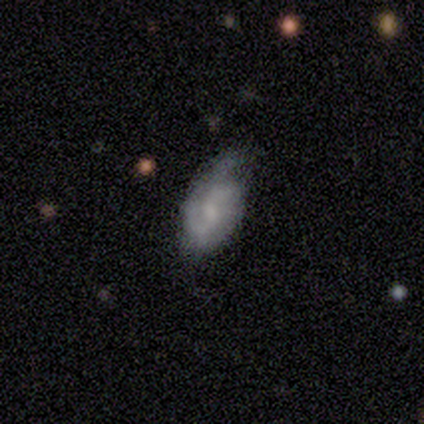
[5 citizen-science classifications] Smooth or featured: smooth — 60% (featured or disk — 40%)
How rounded: in between — 67% (cigar-shaped — 33%)
Merging: none — 40% (tied with minor disturbance — 40%)